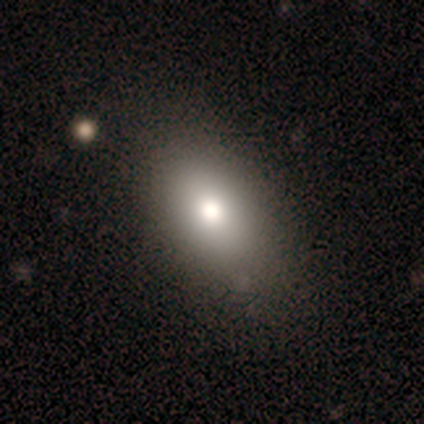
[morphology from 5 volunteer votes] This is clearly a smooth galaxy (80%). How rounded: clearly in between (100%). Merging: clearly none (80%).